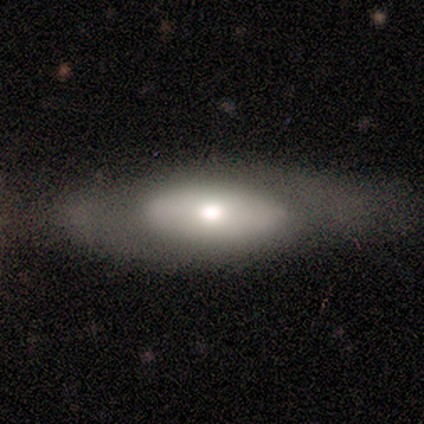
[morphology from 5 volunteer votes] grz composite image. It shows a smooth galaxy with no disk features (80%) that is in between round and cigar-shaped (100%). Merging: none (60%).